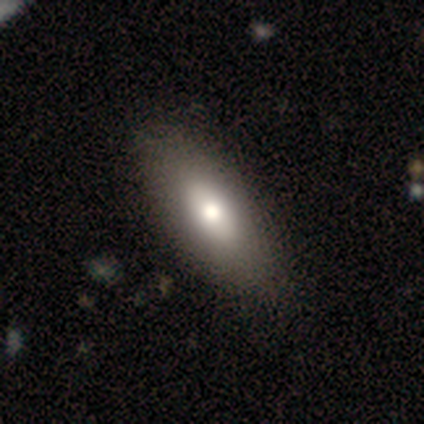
smooth-or-featured: smooth: 60% | star or artifact: 40% | featured or disk: 0%
  how-rounded: in between: 100% | round: 0% | cigar-shaped: 0%
  merging: none: 67% | major disturbance: 33% | minor disturbance: 0% | merger: 0%